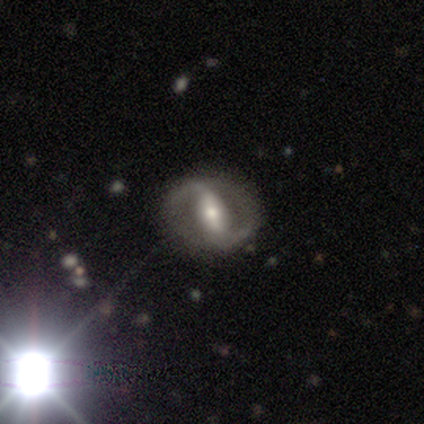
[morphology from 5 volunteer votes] Smooth or featured? 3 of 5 (60%) said featured or disk. Edge-on disk? 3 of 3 (100%) said no. Bar? 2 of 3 (67%) said strong. Spiral arms? 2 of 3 (67%) said yes. Spiral winding? 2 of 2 (100%) said medium. Spiral arm count? 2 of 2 (100%) said 2. Bulge size? 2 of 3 (67%) said moderate. Merging? 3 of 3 (100%) said none.